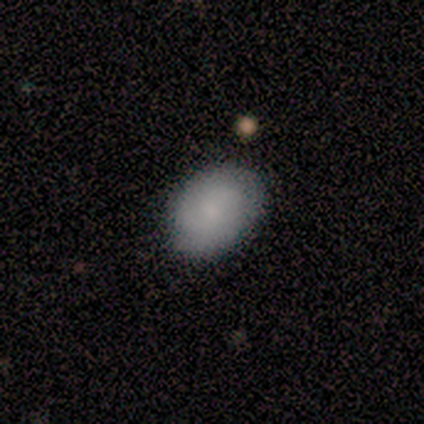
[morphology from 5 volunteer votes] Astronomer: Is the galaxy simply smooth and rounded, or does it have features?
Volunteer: smooth — 60% (runner-up: featured or disk, 40%).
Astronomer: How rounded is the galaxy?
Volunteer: in between — 67%.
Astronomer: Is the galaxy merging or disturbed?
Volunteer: none — 80%.